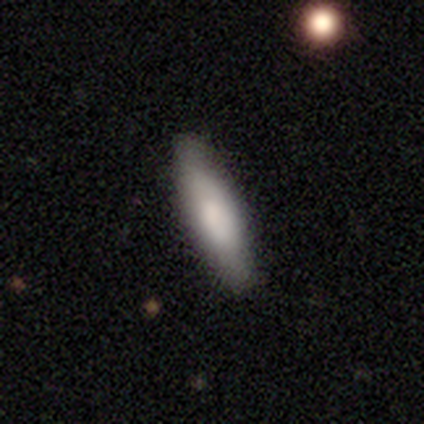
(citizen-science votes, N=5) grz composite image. It shows a smooth galaxy with no disk features (100%) that is cigar-shaped (80%). Merging: none (100%).